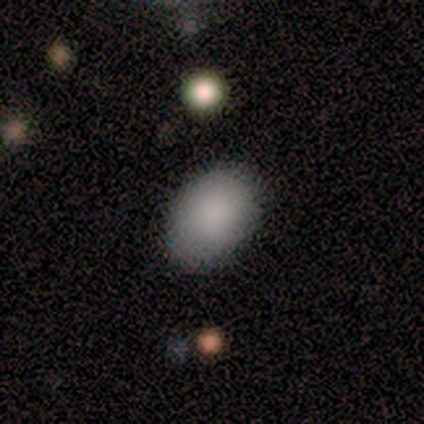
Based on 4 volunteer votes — This appears to be a smooth galaxy with no disk features (100%) that is in between round and cigar-shaped (75%). Merging: none (75%).